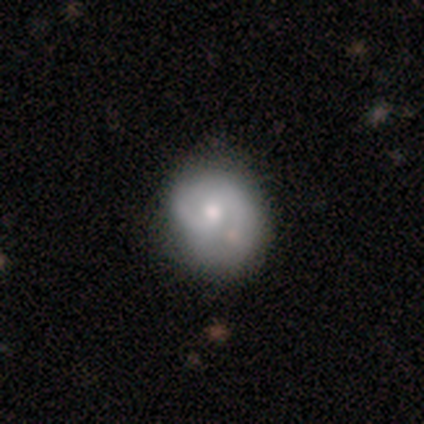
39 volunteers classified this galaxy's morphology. smooth_or_featured: featured or disk (p=0.54) [alt: smooth p=0.44]
disk_edge_on: no (p=1.00)
bar: no (p=0.67) [alt: weak p=0.33]
has_spiral_arms: yes (p=0.71) [alt: no p=0.29]
spiral_winding: medium (p=0.53) [alt: tight p=0.40]
spiral_arm_count: 2 (p=0.73) [alt: 1 p=0.13]
bulge_size: moderate (p=0.52) [alt: small p=0.43]
merging: none (p=0.53) [alt: minor disturbance p=0.39]